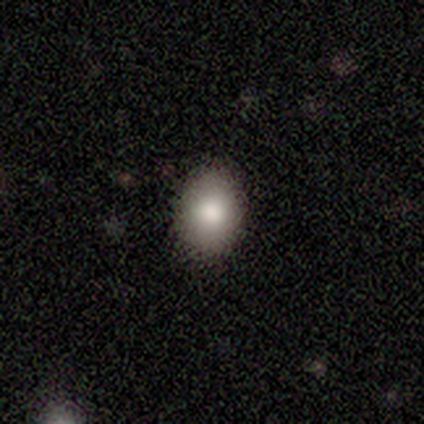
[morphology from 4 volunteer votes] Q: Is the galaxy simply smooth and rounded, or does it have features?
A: smooth — 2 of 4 (50%).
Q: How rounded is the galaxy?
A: round — 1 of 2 (50%, tied with in between).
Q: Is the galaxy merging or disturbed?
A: none — 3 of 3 (100%).